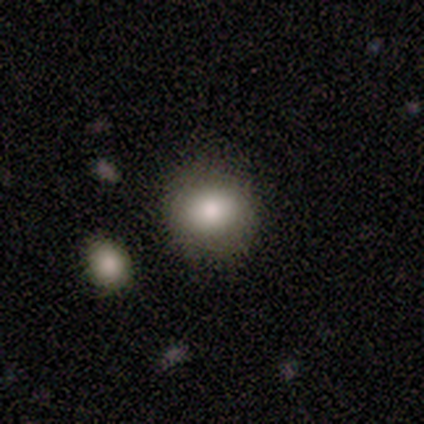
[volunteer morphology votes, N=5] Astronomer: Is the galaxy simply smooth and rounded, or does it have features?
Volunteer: smooth — 80%.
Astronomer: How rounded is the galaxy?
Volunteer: round — 100%.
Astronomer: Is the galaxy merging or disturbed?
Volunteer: none — 40%, tied with minor disturbance at 40%.